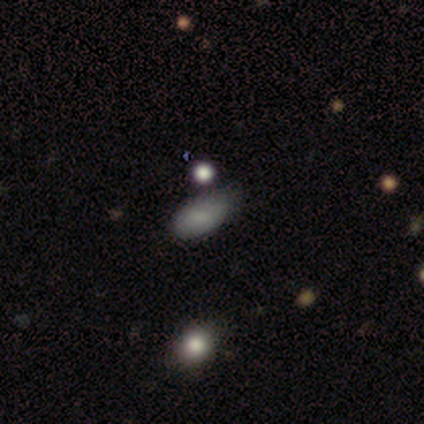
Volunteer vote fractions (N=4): A smooth galaxy with no disk features (100%) that is in between round and cigar-shaped (100%).

Vote fractions:
- Smooth or featured? smooth: 100% / featured or disk: 0% / star or artifact: 0%
- How rounded? in between: 100% / round: 0% / cigar-shaped: 0%
- Merging? minor disturbance: 75% / none: 25% / major disturbance: 0% / merger: 0%